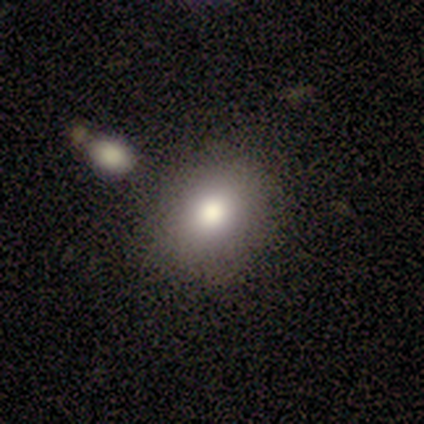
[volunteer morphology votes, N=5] Smooth or featured? featured or disk (40%, tied with star or artifact)
Edge-on disk? no (100%)
Bar? strong (50%, tied with no)
Spiral arms? no (100%)
Bulge size? large (100%)
Merging? none (100%)